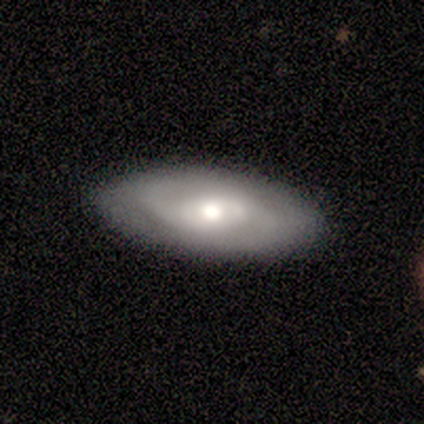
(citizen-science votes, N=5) A featured or disk galaxy (60%) with no bar (100%), 1 (100%) loose (100%) spiral arms (50%, tied with no) and a large central bulge (50%, tied with moderate). Merging: none (100%).